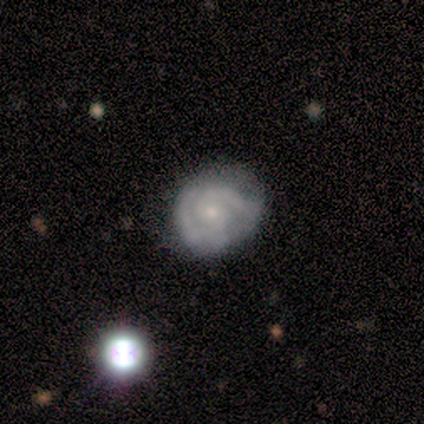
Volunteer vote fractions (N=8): Smooth or featured? 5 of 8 (62%) said featured or disk. Edge-on disk? 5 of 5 (100%) said no. Bar? 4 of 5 (80%) said no. Spiral arms? 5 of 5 (100%) said yes. Spiral winding? 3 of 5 (60%) said tight. Spiral arm count? 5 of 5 (100%) said 2. Bulge size? 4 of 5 (80%) said small. Merging? 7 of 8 (88%) said none.